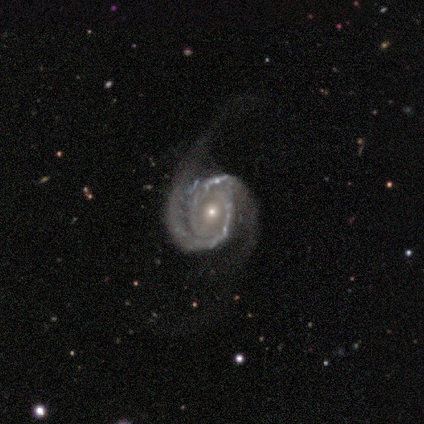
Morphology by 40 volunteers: Smooth or featured? featured or disk (100%)
Edge-on disk? no (100%)
Bar? no (45%)
Spiral arms? yes (100%)
Spiral winding? tight (57%)
Spiral arm count? 2 (98%)
Bulge size? small (68%)
Merging? none (65%)